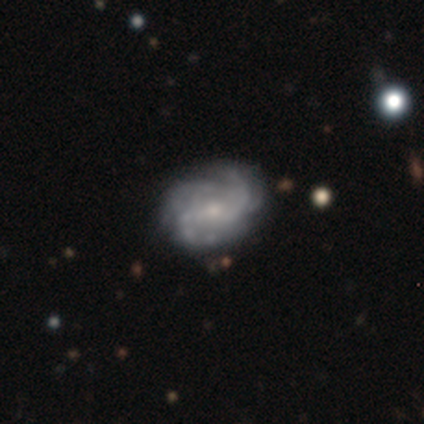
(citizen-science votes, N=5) Volunteers were most divided on "spiral arm count" (2-way tie): 2: 50%, 3: 50%, 1: 0%, 4: 0%, more than 4: 0%, can't tell: 0%. More confident: spiral winding — tight (100%); bulge size — small (100%); merging — none (100%); smooth or featured — featured or disk (80%); edge-on disk — no (75%); bar — no (67%); spiral arms — yes (67%).